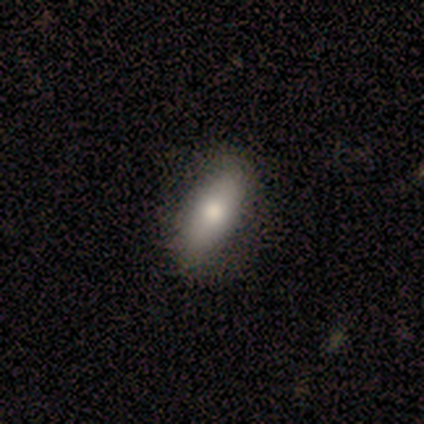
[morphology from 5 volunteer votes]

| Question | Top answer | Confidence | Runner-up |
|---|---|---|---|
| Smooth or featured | smooth | 60% | featured or disk (40%) |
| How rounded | cigar-shaped | 67% | in between (33%) |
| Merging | none | 80% | minor disturbance (20%) |